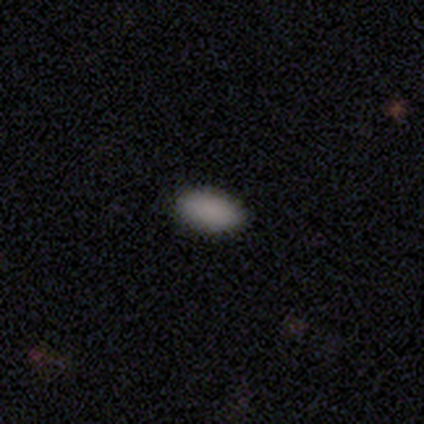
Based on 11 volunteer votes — Volunteers were most divided on "smooth or featured": smooth: 82%, featured or disk: 9%, star or artifact: 9%. More confident: how rounded — in between (100%); merging — none (100%).